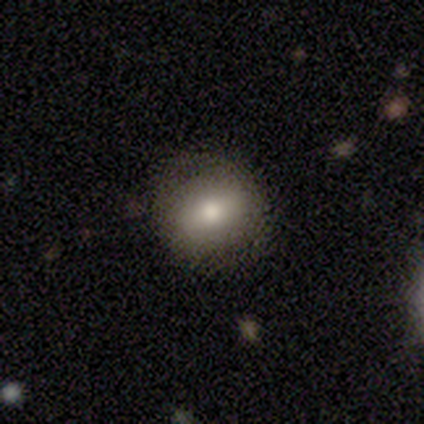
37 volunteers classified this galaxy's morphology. This is likely a smooth galaxy (76%). How rounded: possibly in between (50%). Merging: clearly none (94%).